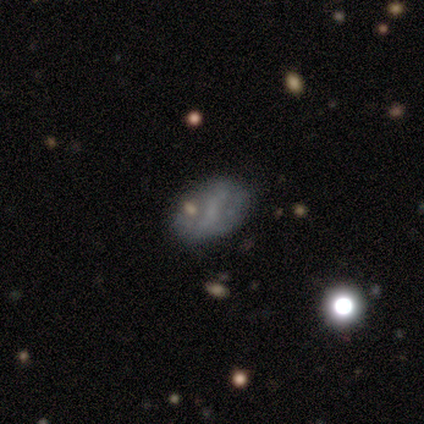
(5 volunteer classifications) This appears to be a smooth galaxy with no disk features (40%, tied with featured or disk) that is in between round and cigar-shaped (100%). Merging: none (100%).